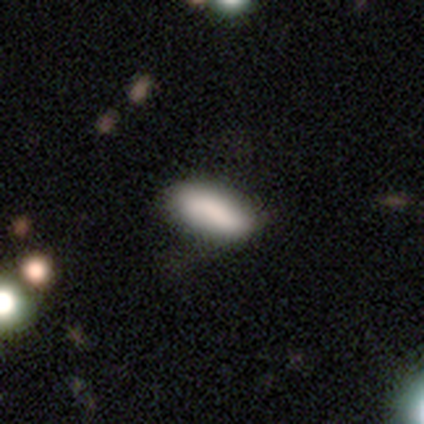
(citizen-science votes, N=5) A smooth galaxy with no disk features (100%) that is in between round and cigar-shaped (60%). Merging: none (80%).